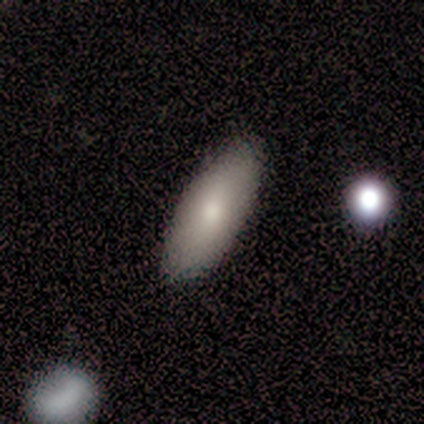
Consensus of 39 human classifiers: This appears to be a smooth galaxy with no disk features (72%) that is in between round and cigar-shaped (86%). Merging: none (87%).